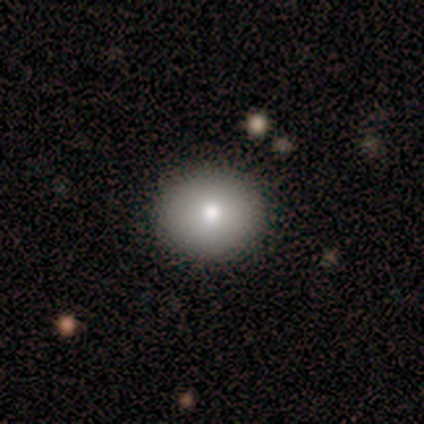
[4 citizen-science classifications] Overall: smooth (100%). How rounded: round (75%). Merging: none (100%).